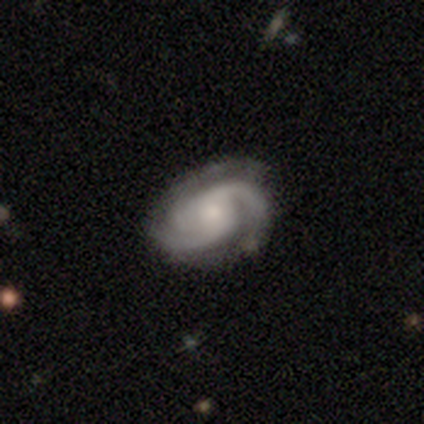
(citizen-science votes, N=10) featured or disk 100%, smooth 0%, star or artifact 0%. Down the decision tree: edge-on disk — no (100%); bar — weak (50%, tied with no); spiral arms — yes (100%); spiral arm count — 2 (60%); spiral winding — medium (60%); bulge size — moderate (50%, tied with small); merging — none (60%).